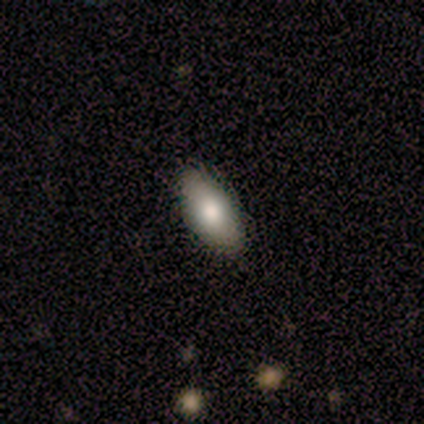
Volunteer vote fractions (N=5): Overall: smooth (60%; star or artifact 40%). How rounded: in between (100%). Merging: none (67%; minor disturbance 33%).